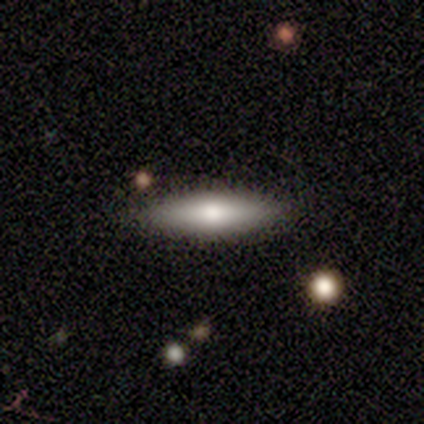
Overall: smooth (50%; featured or disk 25%). How rounded: in between (50%, tied with cigar-shaped). Merging: none (100%).